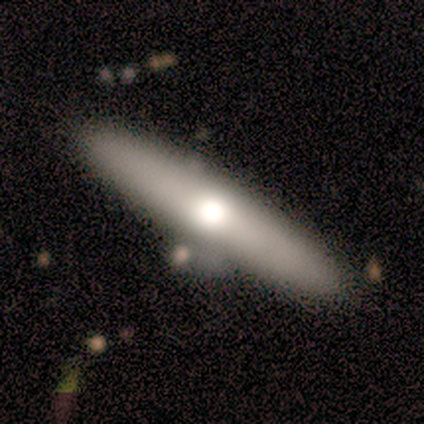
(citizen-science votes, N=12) smooth_or_featured: smooth (p=0.67) [alt: featured or disk p=0.33]
how_rounded: cigar-shaped (p=0.88) [alt: in between p=0.12]
merging: none (p=0.58) [alt: minor disturbance p=0.42]